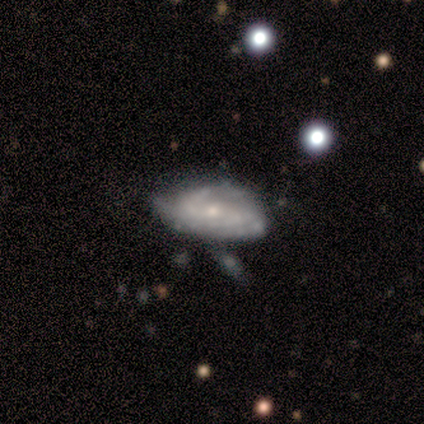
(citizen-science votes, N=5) Volunteers were most divided on "spiral arm count" (3-way tie): 2: 33%, 3: 33%, can't tell: 33%, 1: 0%, 4: 0%, more than 4: 0%; "merging" (2-way tie): none: 40%, minor disturbance: 40%, merger: 20%, major disturbance: 0%. More confident: spiral arms — yes (100%); smooth or featured — featured or disk (80%); edge-on disk — no (75%); bar — no (67%); spiral winding — tight (67%); bulge size — small (67%).